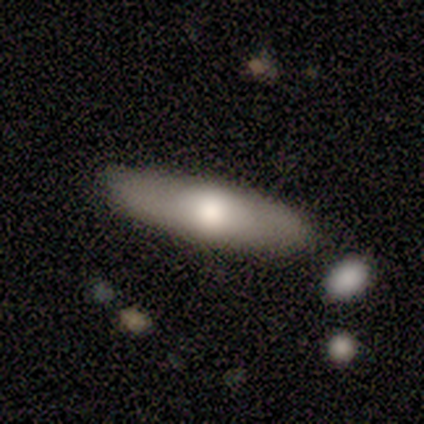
This is likely a smooth galaxy (60%). How rounded: clearly in between (100%). Merging: clearly none (80%).